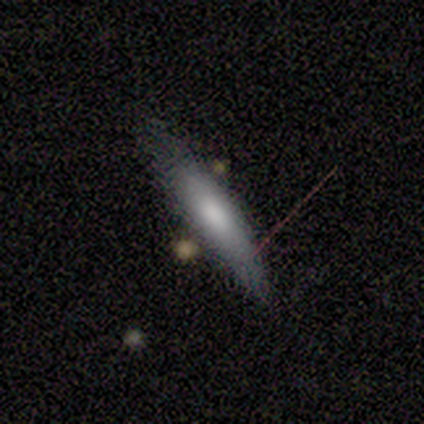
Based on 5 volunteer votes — smooth 80%, featured or disk 20%, star or artifact 0%. Down the decision tree: how rounded — in between (50%, tied with cigar-shaped); merging — none (60%).